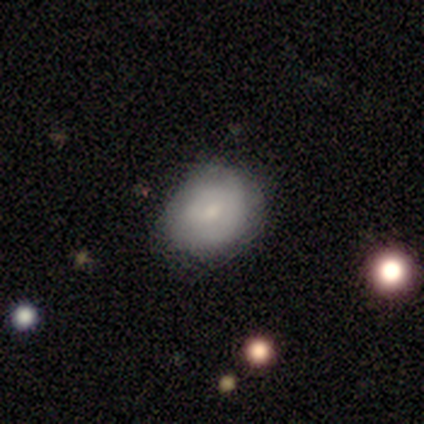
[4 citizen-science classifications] Morphology: type=smooth (75%); roundness=round (100%); merging=none (50%, tied with minor disturbance).